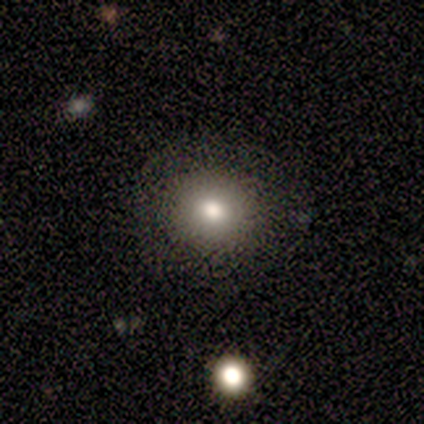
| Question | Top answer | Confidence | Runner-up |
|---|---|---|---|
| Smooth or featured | smooth | 80% | star or artifact (20%) |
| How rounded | round | 75% | in between (25%) |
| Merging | none | 100% | — |